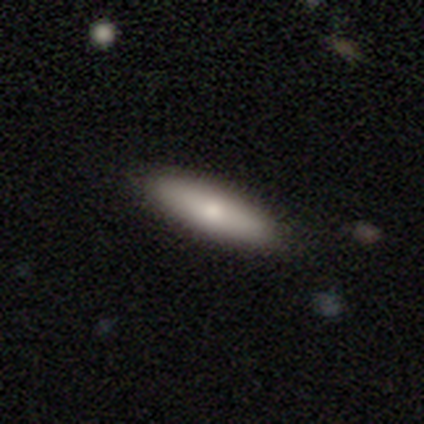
smooth-or-featured: smooth: 78% | featured or disk: 15% | star or artifact: 8%
  how-rounded: cigar-shaped: 61% | in between: 39% | round: 0%
  merging: none: 86% | minor disturbance: 11% | major disturbance: 3% | merger: 0%